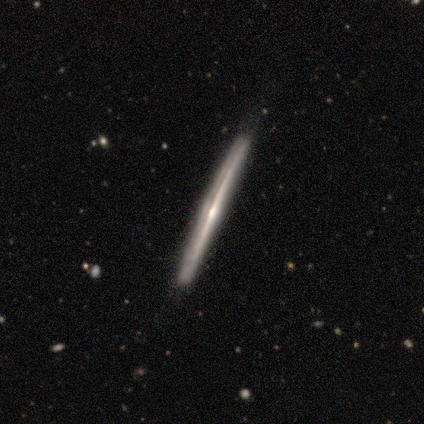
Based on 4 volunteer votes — Overall: featured or disk (100%). Edge-on disk: yes (100%). Edge-on bulge: rounded (100%). Merging: none (75%).